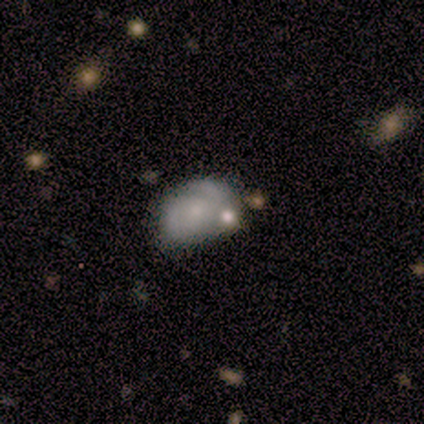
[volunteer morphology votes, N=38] smooth-or-featured: featured or disk: 66% | smooth: 26% | star or artifact: 8%
  disk-edge-on: no: 100% | yes: 0%
    bar: no: 96% | weak: 4% | strong: 0%
    has-spiral-arms: yes: 56% | no: 44%
      spiral-winding: tight: 36% (tied) | medium: 36% (tied) | loose: 29%
      spiral-arm-count: 2: 57% | can't tell: 36% | 1: 7% | 3: 0% | 4: 0% | more than 4: 0%
    bulge-size: small: 56% | none: 36% | moderate: 8% | dominant: 0% | large: 0%
  merging: none: 49% | minor disturbance: 31% | merger: 11% | major disturbance: 9%